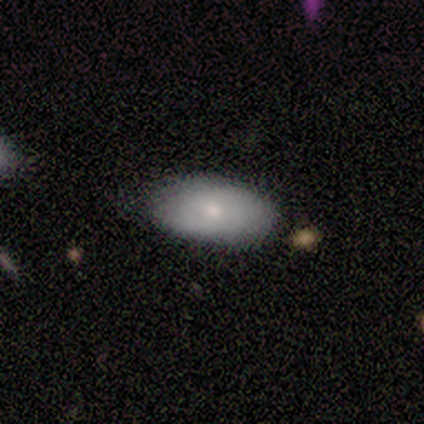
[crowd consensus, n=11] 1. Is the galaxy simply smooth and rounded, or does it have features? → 91% smooth, 9% featured or disk, 0% star or artifact.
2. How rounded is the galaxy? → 100% in between, 0% round, 0% cigar-shaped.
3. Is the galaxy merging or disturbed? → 64% none, 36% minor disturbance, 0% major disturbance, 0% merger.